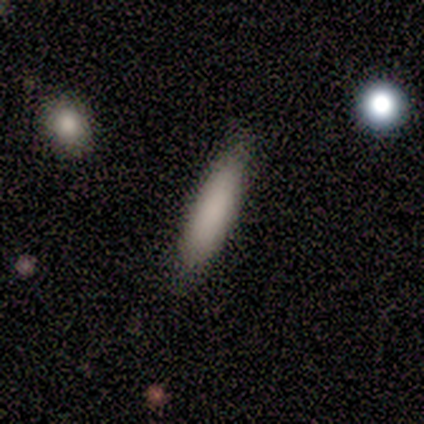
Q: Smooth or featured?
A: smooth (73%); runner-up: star or artifact (27%)
Q: How rounded?
A: cigar-shaped (75%); runner-up: in between (25%)
Q: Merging?
A: none (100%)